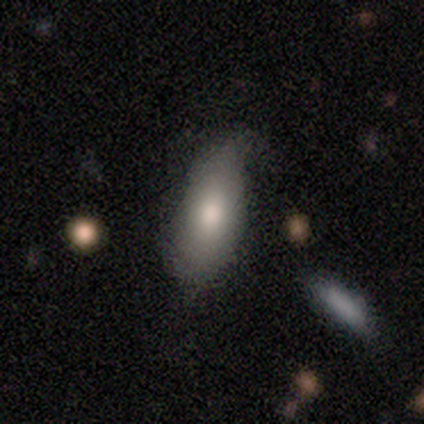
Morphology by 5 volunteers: smooth-or-featured: smooth: 60% | featured or disk: 20% | star or artifact: 20%
  how-rounded: in between: 100% | round: 0% | cigar-shaped: 0%
  merging: none: 75% | minor disturbance: 25% | major disturbance: 0% | merger: 0%